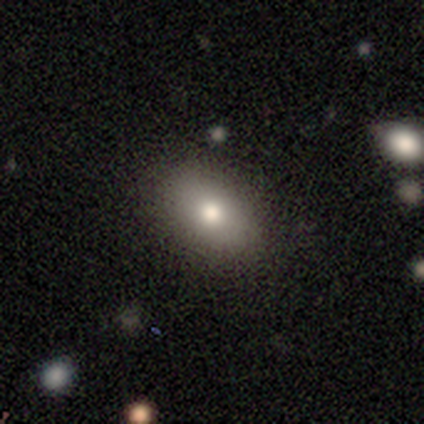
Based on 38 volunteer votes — smooth 76%, featured or disk 18%, star or artifact 5%. Down the decision tree: how rounded — in between (93%); merging — none (100%).